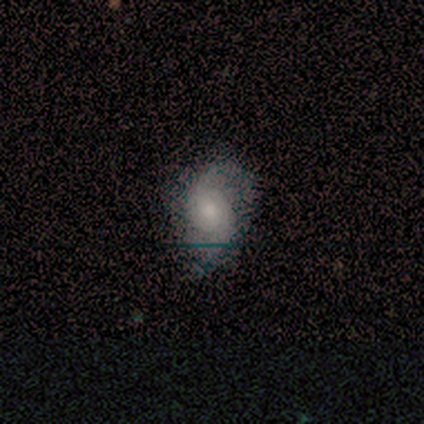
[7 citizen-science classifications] smooth_or_featured: featured or disk (p=0.71) [alt: smooth p=0.29]
disk_edge_on: no (p=1.00)
bar: no (p=0.80) [alt: weak p=0.20]
has_spiral_arms: yes (p=1.00)
spiral_winding: loose (p=0.60) [alt: medium p=0.40]
spiral_arm_count: 2 (p=1.00)
bulge_size: small (p=0.60) [alt: moderate p=0.40]
merging: none (p=0.43) [alt: minor disturbance p=0.29]